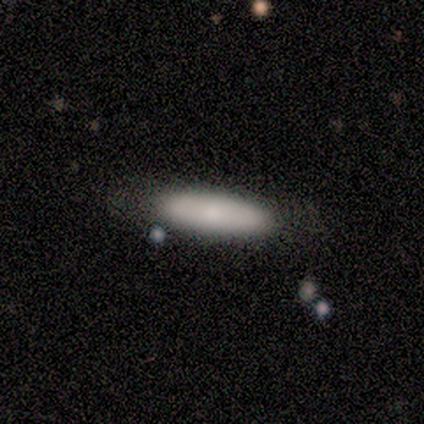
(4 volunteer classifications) Smooth or featured? 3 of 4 (75%) said smooth. How rounded? 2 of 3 (67%) said cigar-shaped. Merging? 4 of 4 (100%) said none.